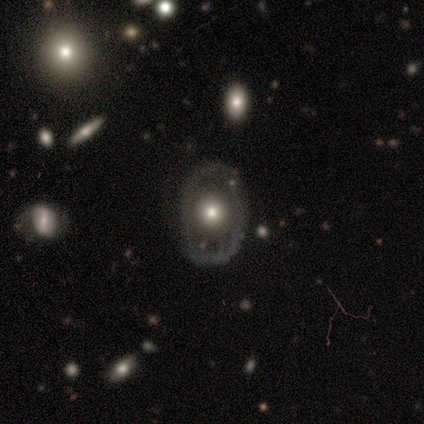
Smooth or featured? 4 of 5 (80%) said featured or disk. Edge-on disk? 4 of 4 (100%) said no. Bar? 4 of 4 (100%) said no. Spiral arms? 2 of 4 (50%, tied with no) said yes. Spiral winding? 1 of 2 (50%, tied with loose) said medium. Spiral arm count? 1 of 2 (50%, tied with 2) said 1. Bulge size? 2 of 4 (50%) said moderate. Merging? 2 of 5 (40%) said none.